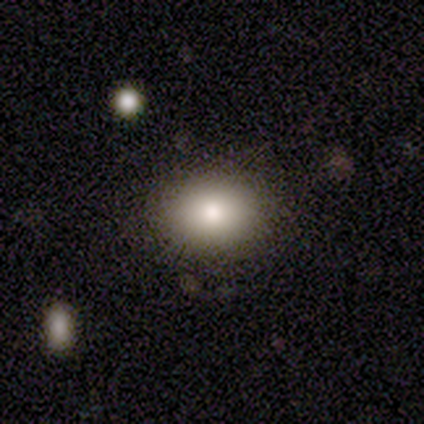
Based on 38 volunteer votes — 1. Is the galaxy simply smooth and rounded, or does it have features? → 71% smooth, 16% star or artifact, 13% featured or disk.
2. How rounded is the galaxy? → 56% in between, 44% round, 0% cigar-shaped.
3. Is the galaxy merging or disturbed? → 97% none, 3% minor disturbance, 0% major disturbance, 0% merger.